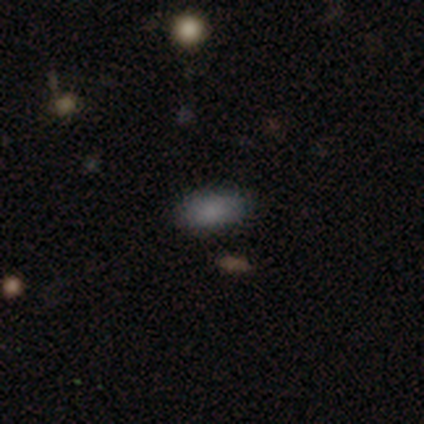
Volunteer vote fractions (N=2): Q: Smooth or featured?
A: smooth (100%)
Q: How rounded?
A: in between (100%)
Q: Merging?
A: none (100%)